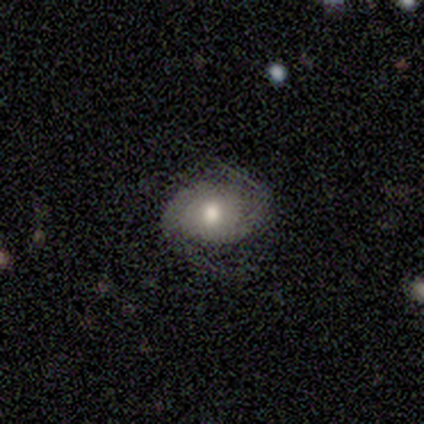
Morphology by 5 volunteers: Smooth or featured: featured or disk — 60% (smooth — 40%)
Edge-on disk: no — 100%
Bar: weak — 67% (no — 33%)
Spiral arms: yes — 67% (no — 33%)
Spiral winding: tight — 50% (tied with loose — 50%)
Spiral arm count: 1 — 50% (tied with 2 — 50%)
Bulge size: moderate — 33% (tied with small — 33%; none — 33%)
Merging: none — 60% (minor disturbance — 20%)